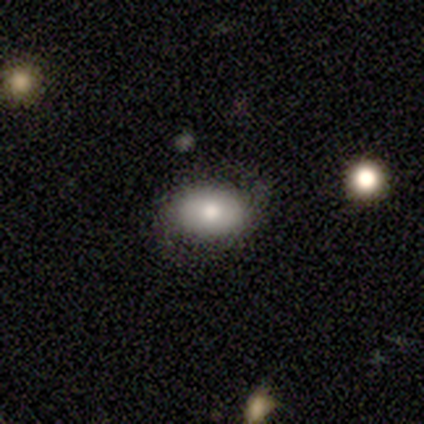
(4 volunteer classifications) A smooth galaxy with no disk features (75%) that is in between round and cigar-shaped (100%).

Vote fractions:
- Smooth or featured? smooth: 75% / featured or disk: 25% / star or artifact: 0%
- How rounded? in between: 100% / round: 0% / cigar-shaped: 0%
- Merging? none: 100% / minor disturbance: 0% / major disturbance: 0% / merger: 0%